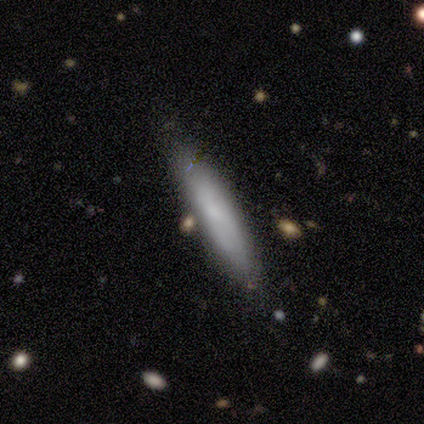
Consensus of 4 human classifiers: Smooth or featured? smooth (75%)
How rounded? cigar-shaped (100%)
Merging? none (100%)